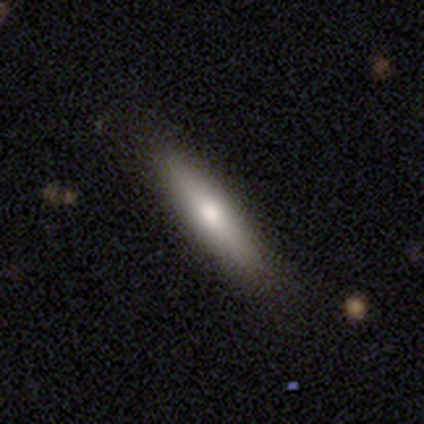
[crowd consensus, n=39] Smooth or featured? smooth (67%)
How rounded? cigar-shaped (77%)
Merging? none (92%)